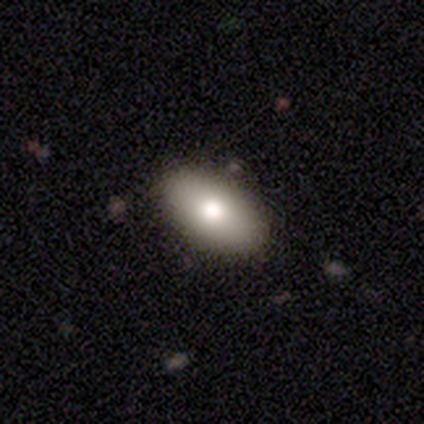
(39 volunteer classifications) smooth_or_featured: smooth (p=0.79) [alt: featured or disk p=0.18]
how_rounded: in between (p=0.97) [alt: round p=0.03]
merging: none (p=0.95) [alt: major disturbance p=0.03]